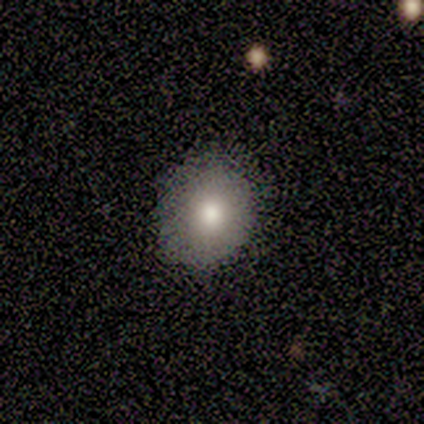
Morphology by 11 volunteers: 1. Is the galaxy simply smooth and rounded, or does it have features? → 73% smooth, 18% featured or disk, 9% star or artifact.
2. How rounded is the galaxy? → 50% round (tied), 50% in between (tied), 0% cigar-shaped.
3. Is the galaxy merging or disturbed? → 70% none, 30% minor disturbance, 0% major disturbance, 0% merger.